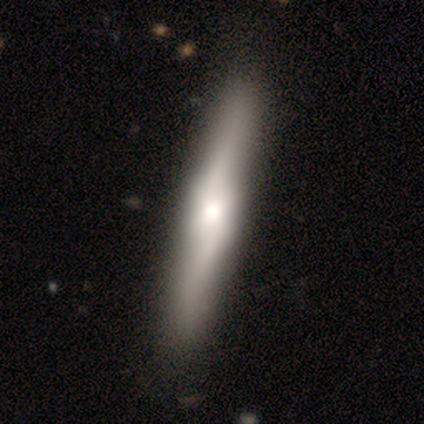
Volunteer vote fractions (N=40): Q: Smooth or featured?
A: featured or disk (80%); runner-up: smooth (20%)
Q: Edge-on disk?
A: yes (78%); runner-up: no (22%)
Q: Edge-on bulge?
A: boxy (48%); runner-up: rounded (44%)
Q: Merging?
A: none (68%); runner-up: minor disturbance (5%)